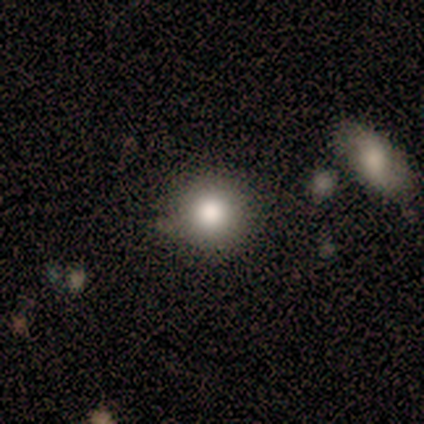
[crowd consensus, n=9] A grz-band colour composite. It shows a smooth galaxy with no disk features (67%) that is round (100%). Merging: none (100%).